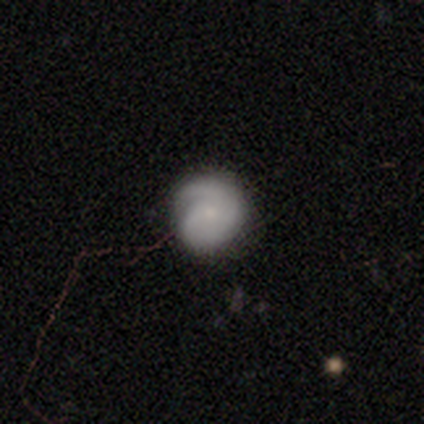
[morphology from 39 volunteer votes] type=featured or disk (54%); edge-on=no (95%); bar=no (90%); spiral arms=yes (85%); winding=tight (53%); arm count=1 (41%); bulge=small (65%); merging=none (70%).